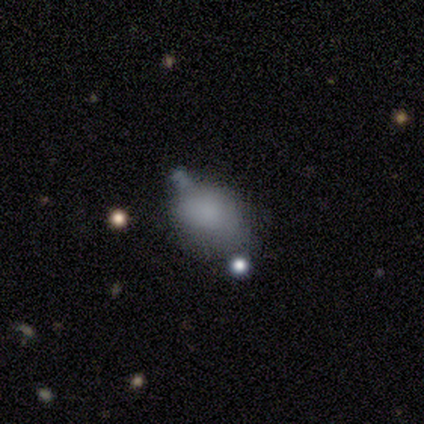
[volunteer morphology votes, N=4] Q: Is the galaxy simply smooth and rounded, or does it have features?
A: smooth — 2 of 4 (50%, tied with star or artifact).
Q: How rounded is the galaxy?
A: in between — 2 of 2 (100%).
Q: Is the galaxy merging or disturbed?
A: none — 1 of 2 (50%, tied with minor disturbance).